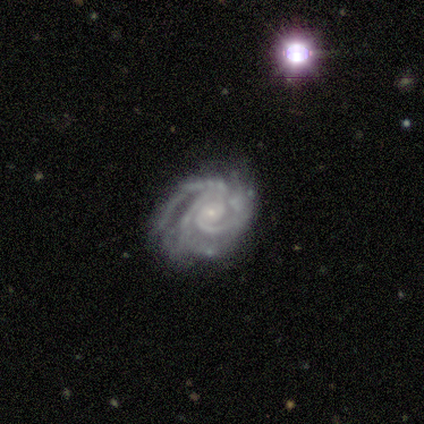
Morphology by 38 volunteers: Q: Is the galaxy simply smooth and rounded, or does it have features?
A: featured or disk — 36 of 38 (95%).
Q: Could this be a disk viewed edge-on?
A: no — 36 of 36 (100%).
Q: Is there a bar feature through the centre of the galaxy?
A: no — 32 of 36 (89%).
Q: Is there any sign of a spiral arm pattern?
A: yes — 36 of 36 (100%).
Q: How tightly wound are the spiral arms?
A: tight — 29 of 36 (81%).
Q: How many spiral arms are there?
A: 3 — 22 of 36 (61%).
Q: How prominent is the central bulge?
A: small — 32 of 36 (89%).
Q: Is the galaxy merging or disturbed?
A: none — 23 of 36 (64%).